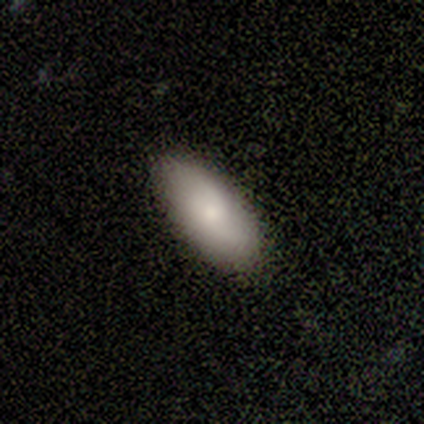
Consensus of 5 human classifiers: Overall: smooth (80%). How rounded: in between (100%). Merging: none (75%).